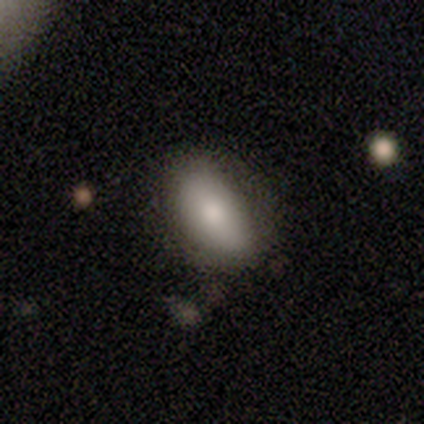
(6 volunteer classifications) Smooth or featured?
  - smooth: 83% *
  - star or artifact: 17%
  - featured or disk: 0%
How rounded?
  - in between: 100% *
  - round: 0%
  - cigar-shaped: 0%
Merging?
  - none: 60% *
  - minor disturbance: 20%
  - major disturbance: 20%
  - merger: 0%